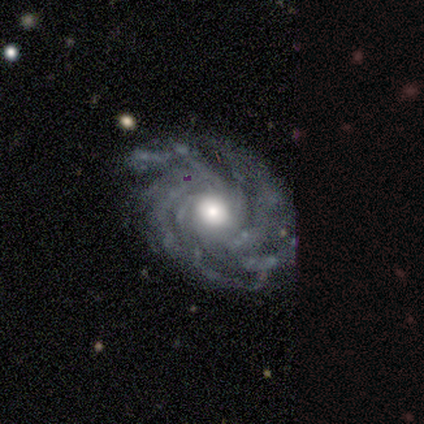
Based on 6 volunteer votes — This is clearly a featured or disk galaxy (100%). It is clearly not viewed edge-on (83%). Bar: likely no (60%). Spiral arm pattern: clearly yes (100%). Spiral arm count: clearly more than 4 (80%). Spiral winding: clearly tight (100%). Central bulge: clearly moderate (100%). Merging: clearly none (83%).